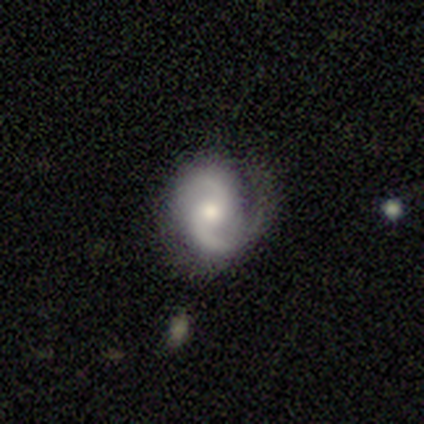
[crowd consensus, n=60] Smooth or featured?
  - featured or disk: 88% *
  - star or artifact: 8%
  - smooth: 3%
Edge-on disk?
  - no: 98% *
  - yes: 2%
Bar?
  - no: 71% *
  - weak: 27%
  - strong: 2%
Spiral arms?
  - yes: 96% *
  - no: 4%
Spiral winding?
  - medium: 46% *
  - loose: 28%
  - tight: 26%
Spiral arm count?
  - 2: 88% *
  - 1: 10%
  - 3: 2%
  - 4: 0%
  - more than 4: 0%
  - can't tell: 0%
Bulge size?
  - moderate: 73% *
  - small: 19%
  - large: 8%
  - dominant: 0%
  - none: 0%
Merging?
  - none: 60% *
  - minor disturbance: 22%
  - major disturbance: 16%
  - merger: 2%